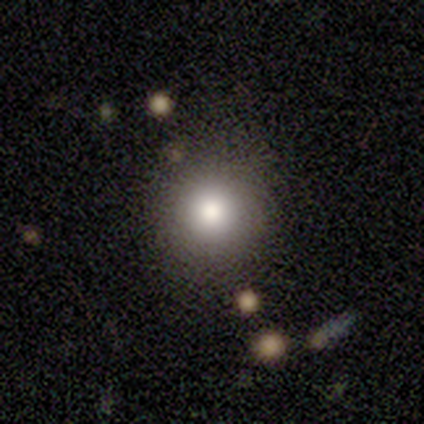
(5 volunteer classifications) A smooth galaxy with no disk features (40%, tied with featured or disk) that is round (100%). Merging: none (75%).